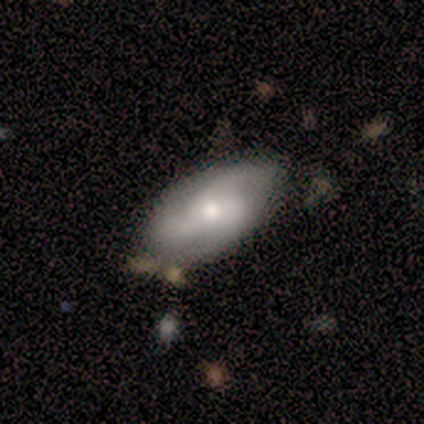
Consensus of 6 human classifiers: Overall: smooth (50%, tied with featured or disk). How rounded: in between (100%). Merging: none (50%; minor disturbance 33%).